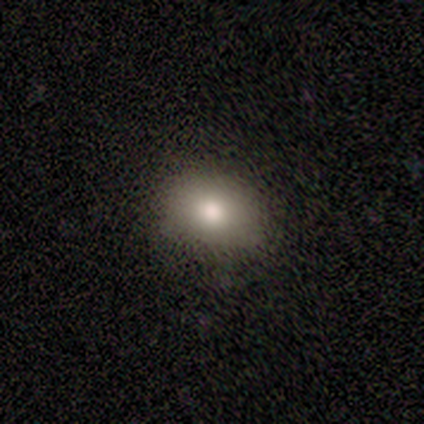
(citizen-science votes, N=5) Smooth or featured?
  - smooth: 100% *
  - featured or disk: 0%
  - star or artifact: 0%
How rounded?
  - in between: 80% *
  - round: 20%
  - cigar-shaped: 0%
Merging?
  - minor disturbance: 60% *
  - none: 40%
  - major disturbance: 0%
  - merger: 0%